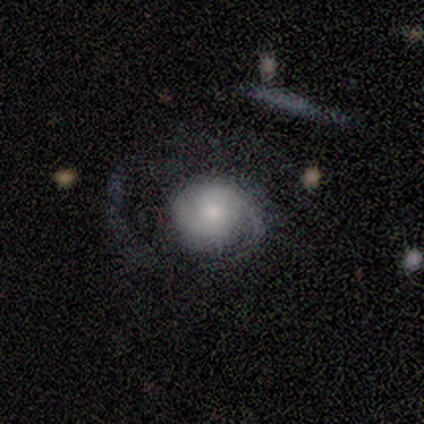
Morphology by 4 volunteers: Smooth or featured? 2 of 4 (50%) said featured or disk. Edge-on disk? 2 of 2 (100%) said no. Bar? 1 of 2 (50%, tied with no) said weak. Spiral arms? 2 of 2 (100%) said yes. Spiral winding? 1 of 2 (50%, tied with loose) said medium. Spiral arm count? 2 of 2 (100%) said 2. Bulge size? 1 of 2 (50%, tied with moderate) said large. Merging? 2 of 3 (67%) said major disturbance.